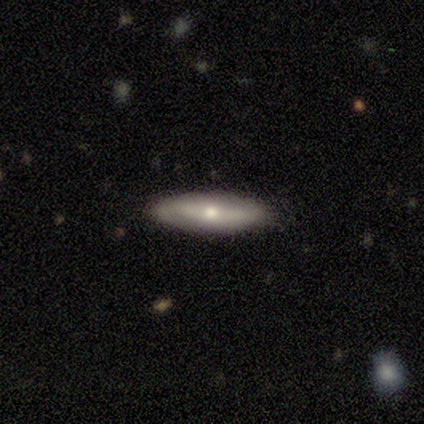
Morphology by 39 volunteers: Smooth or featured?
  - smooth: 49% *
  - featured or disk: 44%
  - star or artifact: 8%
How rounded?
  - in between: 53% *
  - cigar-shaped: 47%
  - round: 0%
Merging?
  - none: 86% *
  - minor disturbance: 14%
  - major disturbance: 0%
  - merger: 0%